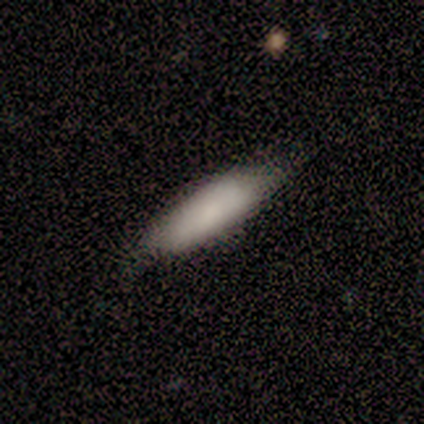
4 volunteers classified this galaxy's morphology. Q: Smooth or featured?
A: smooth (100%)
Q: How rounded?
A: cigar-shaped (75%); runner-up: in between (25%)
Q: Merging?
A: none (75%); runner-up: minor disturbance (25%)